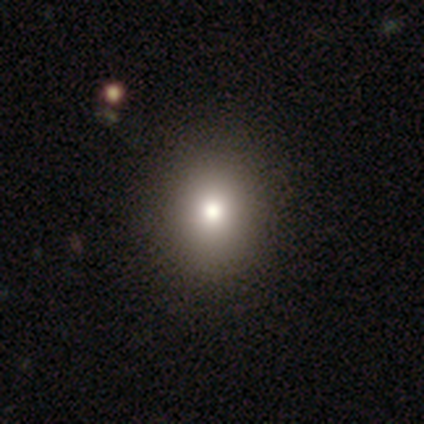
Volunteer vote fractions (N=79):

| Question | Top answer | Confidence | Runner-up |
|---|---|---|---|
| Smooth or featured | smooth | 82% | star or artifact (10%) |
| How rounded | round | 60% | in between (38%) |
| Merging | none | 51% | minor disturbance (1%) |